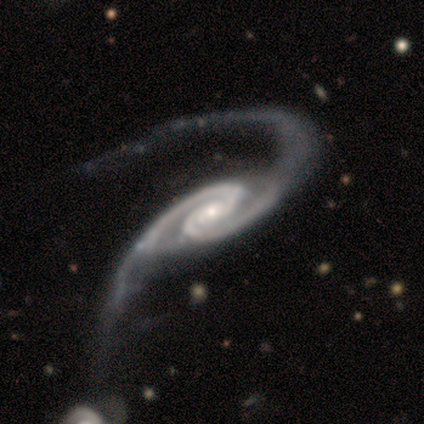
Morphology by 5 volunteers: featured or disk 100%, smooth 0%, star or artifact 0%. Down the decision tree: edge-on disk — no (100%); bar — no (80%); spiral arms — yes (100%); spiral arm count — 2 (100%); spiral winding — medium (60%); bulge size — moderate (40%, tied with small); merging — major disturbance (80%).